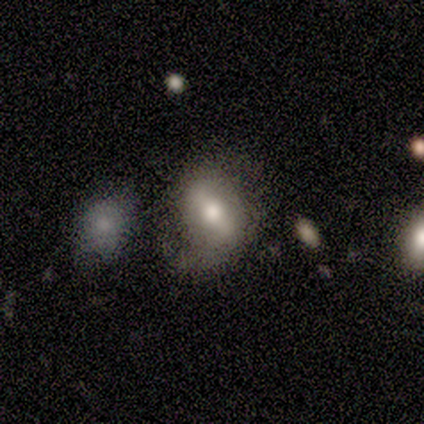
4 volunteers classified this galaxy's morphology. featured or disk 75%, smooth 25%, star or artifact 0%. Down the decision tree: edge-on disk — no (100%); bar — weak (67%); spiral arms — no (67%); bulge size — moderate (100%); merging — none (75%).